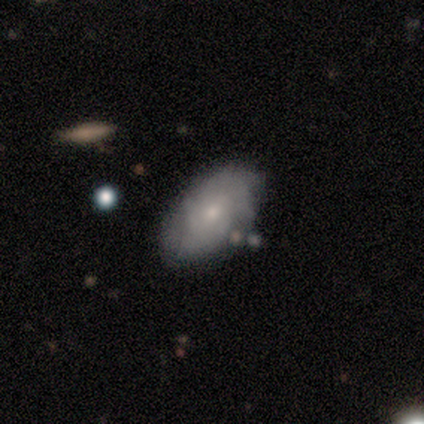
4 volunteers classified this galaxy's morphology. Smooth or featured? 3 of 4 (75%) said featured or disk. Edge-on disk? 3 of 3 (100%) said no. Bar? 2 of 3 (67%) said weak. Spiral arms? 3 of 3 (100%) said yes. Spiral winding? 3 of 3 (100%) said medium. Spiral arm count? 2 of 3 (67%) said can't tell. Bulge size? 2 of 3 (67%) said small. Merging? 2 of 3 (67%) said none.